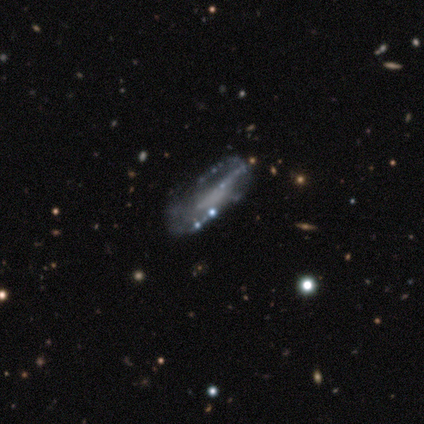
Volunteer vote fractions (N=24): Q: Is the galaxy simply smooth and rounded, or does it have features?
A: featured or disk — 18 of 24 (75%).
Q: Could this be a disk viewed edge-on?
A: no — 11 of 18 (61%).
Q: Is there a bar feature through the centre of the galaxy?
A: no — 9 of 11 (82%).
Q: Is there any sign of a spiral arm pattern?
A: no — 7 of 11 (64%).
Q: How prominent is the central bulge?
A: none — 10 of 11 (91%).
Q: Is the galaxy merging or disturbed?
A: none — 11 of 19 (58%).